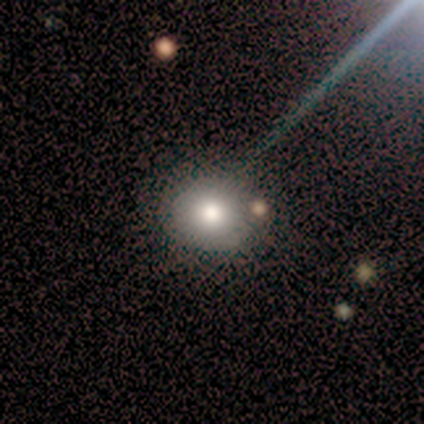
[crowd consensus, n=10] A smooth galaxy with no disk features (90%) that is round (89%).

Vote fractions:
- Smooth or featured? smooth: 90% / star or artifact: 10% / featured or disk: 0%
- How rounded? round: 89% / in between: 11% / cigar-shaped: 0%
- Merging? none: 100% / minor disturbance: 0% / major disturbance: 0% / merger: 0%